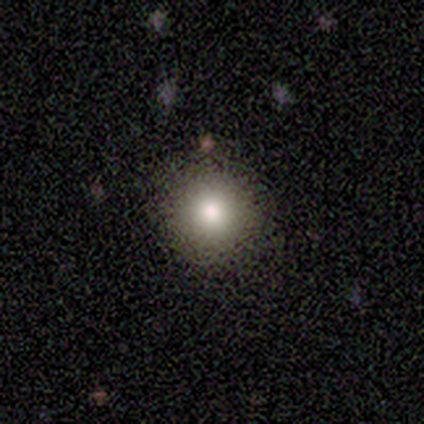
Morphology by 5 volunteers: Smooth or featured? smooth (100%)
How rounded? round (100%)
Merging? none (80%)